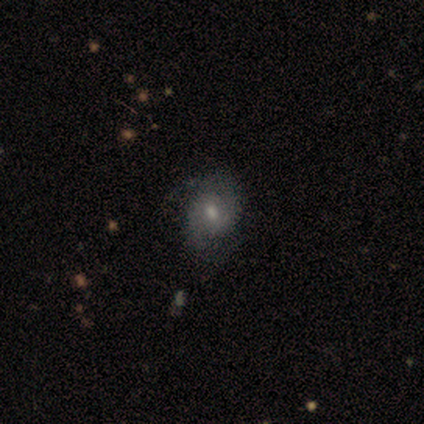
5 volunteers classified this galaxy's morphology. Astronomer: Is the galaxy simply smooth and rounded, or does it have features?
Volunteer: featured or disk — 60% (runner-up: smooth, 40%).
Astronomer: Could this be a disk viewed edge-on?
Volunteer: no — 100%.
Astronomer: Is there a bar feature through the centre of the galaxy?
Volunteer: weak — 100%.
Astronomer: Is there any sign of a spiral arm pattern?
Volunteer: yes — 67%.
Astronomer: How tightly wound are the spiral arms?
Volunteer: tight — 50%, tied with medium at 50%.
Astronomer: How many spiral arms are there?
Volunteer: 2 — 100%.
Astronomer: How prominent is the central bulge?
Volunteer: small — 100%.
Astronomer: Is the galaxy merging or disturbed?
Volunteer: none — 60% (runner-up: minor disturbance, 40%).